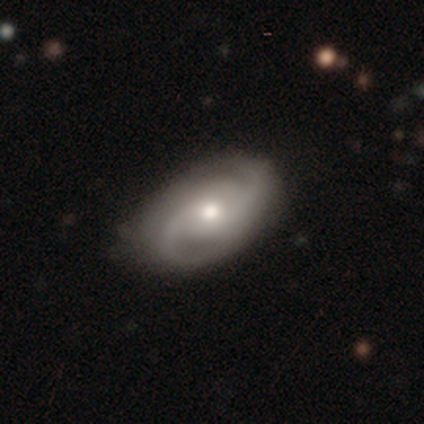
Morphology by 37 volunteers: smooth-or-featured: featured or disk: 84% | smooth: 16% | star or artifact: 0%
  disk-edge-on: no: 97% | yes: 3%
    bar: no: 77% | weak: 23% | strong: 0%
    has-spiral-arms: yes: 100% | no: 0%
      spiral-winding: medium: 60% | tight: 23% | loose: 17%
      spiral-arm-count: 2: 77% | 3: 13% | can't tell: 7% | 1: 3% | 4: 0% | more than 4: 0%
    bulge-size: moderate: 80% | small: 20% | dominant: 0% | large: 0% | none: 0%
  merging: none: 84% | minor disturbance: 14% | major disturbance: 3% | merger: 0%